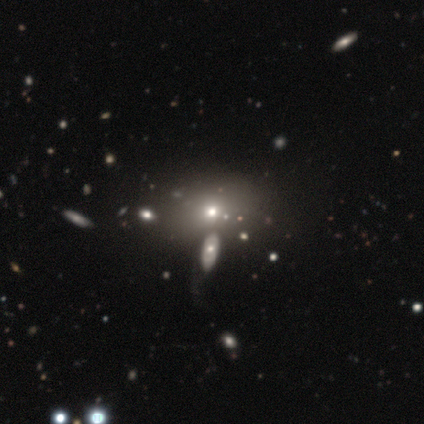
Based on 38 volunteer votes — smooth 63%, featured or disk 21%, star or artifact 16%. Down the decision tree: how rounded — in between (62%); merging — none (56%).